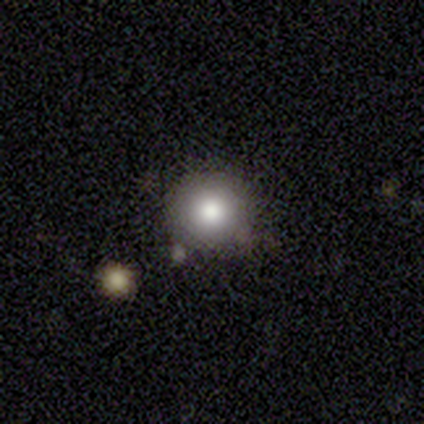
This is clearly a smooth galaxy (100%). How rounded: clearly round (100%). Merging: clearly none (80%).